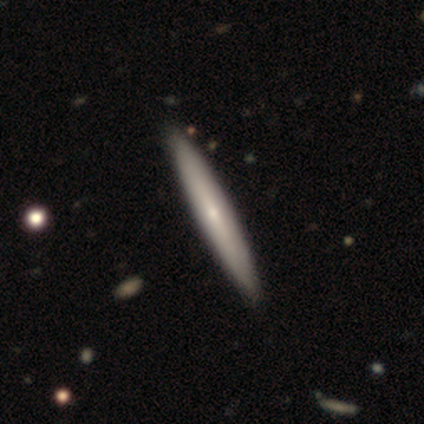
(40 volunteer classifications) Smooth or featured?
  - featured or disk: 57% *
  - smooth: 42%
  - star or artifact: 0%
Edge-on disk?
  - yes: 100% *
  - no: 0%
Edge-on bulge?
  - none: 48% * (tied)
  - rounded: 48% * (tied)
  - boxy: 4%
Merging?
  - none: 57% *
  - minor disturbance: 2%
  - major disturbance: 2%
  - merger: 2%